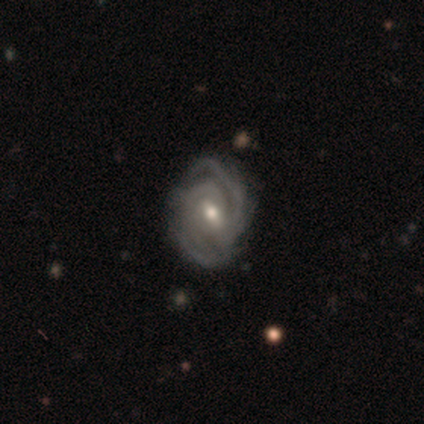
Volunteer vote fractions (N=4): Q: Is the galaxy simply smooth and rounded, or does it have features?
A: featured or disk — 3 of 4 (75%).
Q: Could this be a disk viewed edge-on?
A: no — 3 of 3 (100%).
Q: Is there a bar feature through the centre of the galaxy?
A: no — 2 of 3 (67%).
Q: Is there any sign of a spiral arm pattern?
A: yes — 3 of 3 (100%).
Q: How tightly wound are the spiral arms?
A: tight — 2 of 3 (67%).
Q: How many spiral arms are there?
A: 2 — 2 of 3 (67%).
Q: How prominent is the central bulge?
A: moderate — 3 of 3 (100%).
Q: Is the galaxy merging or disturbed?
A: none — 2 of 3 (67%).